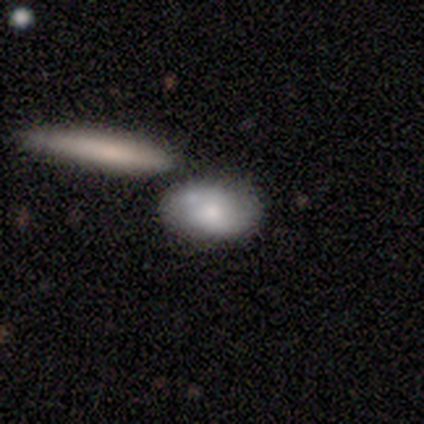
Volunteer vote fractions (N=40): smooth_or_featured: smooth (p=0.72) [alt: featured or disk p=0.23]
how_rounded: in between (p=0.86) [alt: round p=0.10]
merging: none (p=0.58) [alt: merger p=0.21]